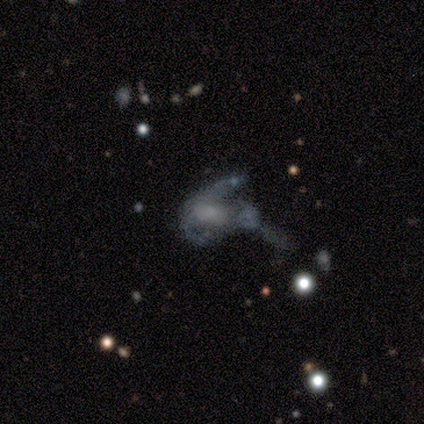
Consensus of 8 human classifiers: A featured or disk galaxy (75%) with no bar (83%), medium (50%) spiral arms (67%) and a moderate central bulge (33%, tied with small). Merging: major disturbance (62%).